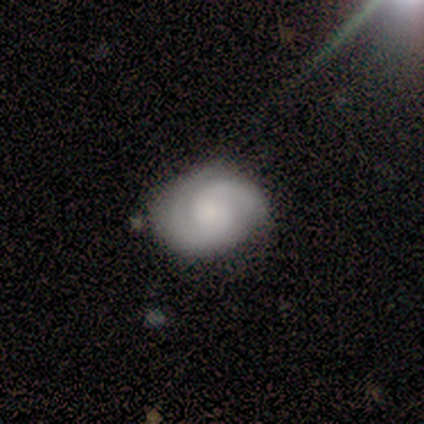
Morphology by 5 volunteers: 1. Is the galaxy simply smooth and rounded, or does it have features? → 100% featured or disk, 0% smooth, 0% star or artifact.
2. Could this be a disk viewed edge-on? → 100% no, 0% yes.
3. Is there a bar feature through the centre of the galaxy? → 60% no, 40% weak, 0% strong.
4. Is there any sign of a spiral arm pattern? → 80% yes, 20% no.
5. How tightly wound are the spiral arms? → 50% tight, 25% medium, 25% loose.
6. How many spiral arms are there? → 75% 2, 25% 1, 0% 3, 0% 4, 0% more than 4, 0% can't tell.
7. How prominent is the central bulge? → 40% large (tied), 40% small (tied), 20% moderate, 0% dominant, 0% none.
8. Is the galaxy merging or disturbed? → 60% none, 40% minor disturbance, 0% major disturbance, 0% merger.